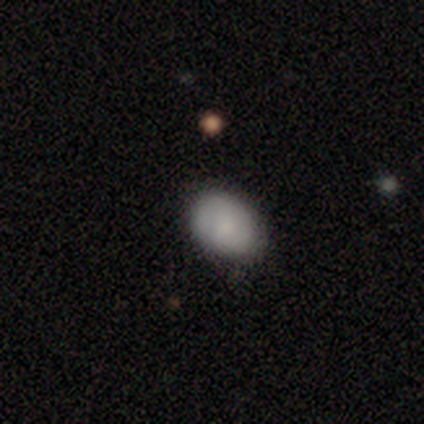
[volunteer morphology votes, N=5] Smooth or featured: smooth — 40% (tied with featured or disk — 40%)
How rounded: round — 50% (tied with in between — 50%)
Merging: none — 75% (major disturbance — 25%)